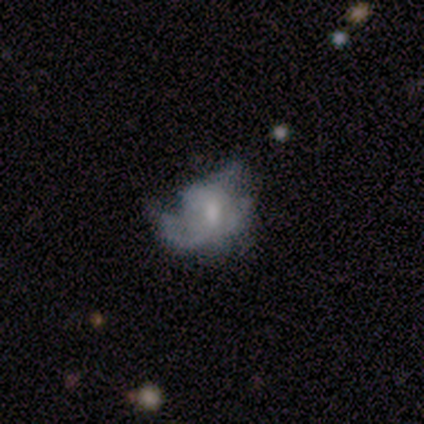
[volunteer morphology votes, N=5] Volunteers were most divided on "merging" (2-way tie): minor disturbance: 40%, major disturbance: 40%, none: 20%, merger: 0%. Remaining: smooth or featured — featured or disk (100%); edge-on disk — no (100%); spiral arms — no (80%); bar — no (60%); bulge size — small (40%).